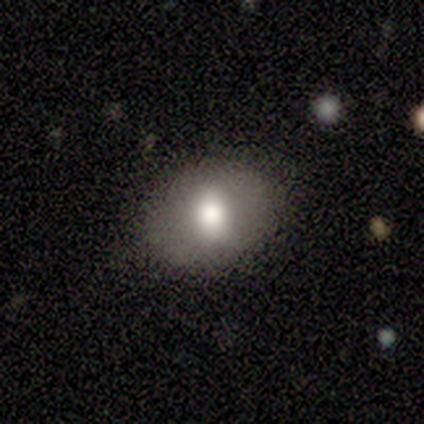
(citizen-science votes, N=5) Morphology: type=smooth (40%, tied with featured or disk); roundness=in between (100%); merging=none (100%).